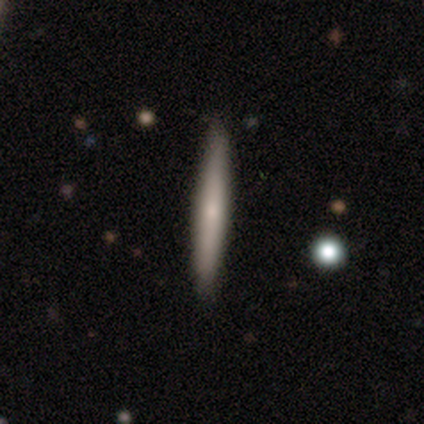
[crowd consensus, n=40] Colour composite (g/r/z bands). It shows a smooth galaxy with no disk features (62%) that is cigar-shaped (100%). Merging: none (67%).